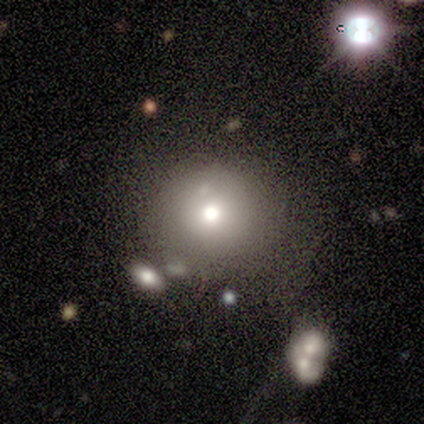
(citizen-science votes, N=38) smooth-or-featured: smooth: 66% | featured or disk: 21% | star or artifact: 13%
  how-rounded: round: 88% | in between: 8% | cigar-shaped: 4%
  merging: none: 67% | merger: 15% | minor disturbance: 12% | major disturbance: 6%